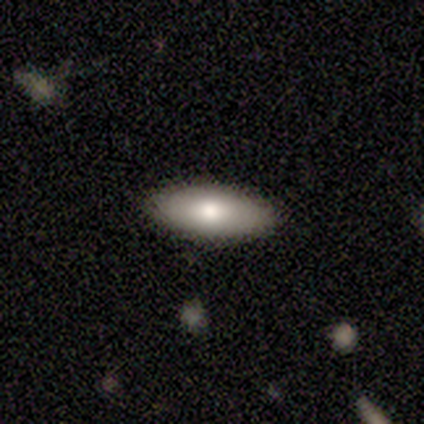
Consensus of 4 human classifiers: smooth 100%, featured or disk 0%, star or artifact 0%. Down the decision tree: how rounded — in between (75%); merging — none (100%).